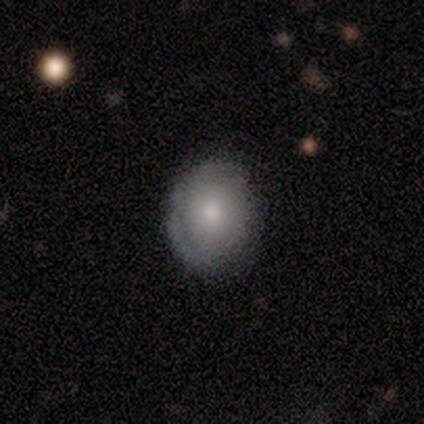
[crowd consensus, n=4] Morphology: type=smooth (75%); roundness=round (67%); merging=none (100%).